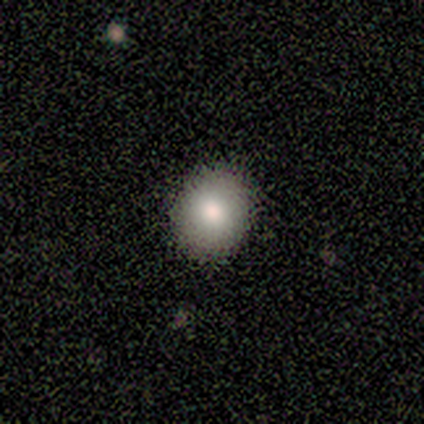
smooth 100%, featured or disk 0%, star or artifact 0%. Down the decision tree: how rounded — round (80%); merging — none (100%).